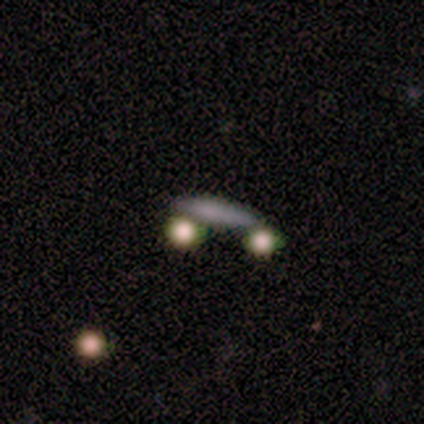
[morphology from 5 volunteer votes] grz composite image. It shows a smooth galaxy with no disk features (60%) that is cigar-shaped (67%). Merging: none (50%, tied with merger).